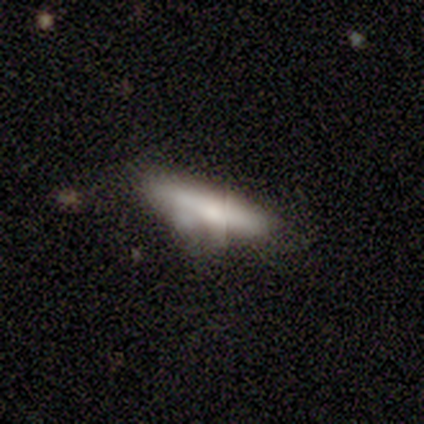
smooth-or-featured: smooth: 80% | featured or disk: 20% | star or artifact: 0%
  how-rounded: cigar-shaped: 75% | in between: 25% | round: 0%
  merging: none: 60% | minor disturbance: 20% | merger: 20% | major disturbance: 0%